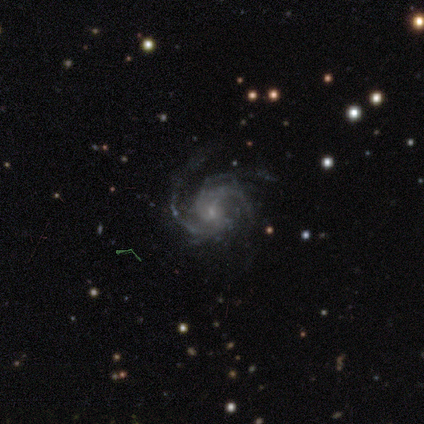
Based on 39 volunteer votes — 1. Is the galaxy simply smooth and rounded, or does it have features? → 90% featured or disk, 10% star or artifact, 0% smooth.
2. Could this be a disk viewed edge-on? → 100% no, 0% yes.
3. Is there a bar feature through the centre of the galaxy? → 57% no, 37% weak, 6% strong.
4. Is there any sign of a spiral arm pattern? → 100% yes, 0% no.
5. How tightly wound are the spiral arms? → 57% medium, 29% tight, 14% loose.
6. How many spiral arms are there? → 40% 3, 20% 4, 20% can't tell, 17% 2, 3% more than 4, 0% 1.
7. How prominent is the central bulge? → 83% small, 9% moderate, 9% none, 0% dominant, 0% large.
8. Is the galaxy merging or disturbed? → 69% none, 17% minor disturbance, 14% major disturbance, 0% merger.